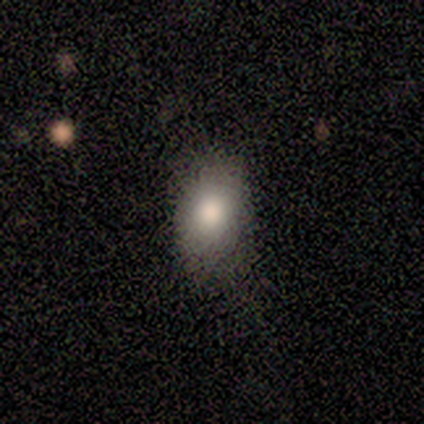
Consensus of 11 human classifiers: Smooth or featured? 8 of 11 (73%) said smooth. How rounded? 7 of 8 (88%) said in between. Merging? 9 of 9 (100%) said none.